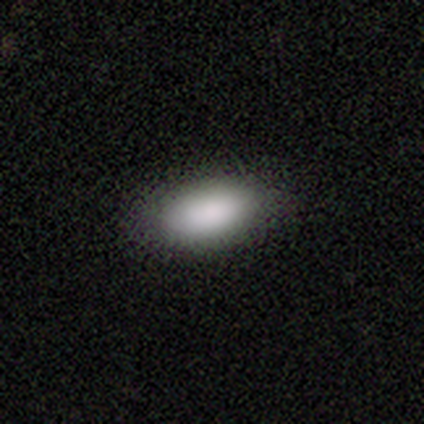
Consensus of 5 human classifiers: smooth-or-featured: smooth: 80% | star or artifact: 20% | featured or disk: 0%
  how-rounded: in between: 100% | round: 0% | cigar-shaped: 0%
  merging: none: 75% | minor disturbance: 25% | major disturbance: 0% | merger: 0%